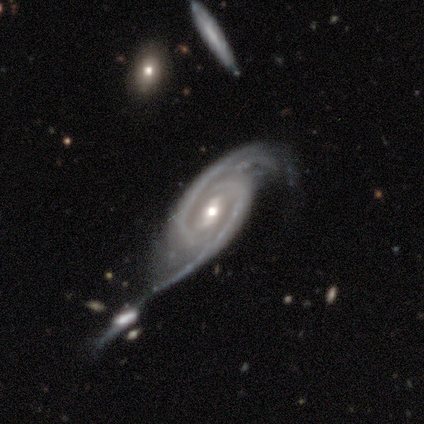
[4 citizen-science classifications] Volunteers were most divided on "bar": weak: 67%, no: 33%, strong: 0%. More confident: smooth or featured — featured or disk (100%); spiral arms — yes (100%); spiral arm count — 2 (100%); edge-on disk — no (75%); merging — merger (75%); spiral winding — medium (67%); bulge size — moderate (67%).